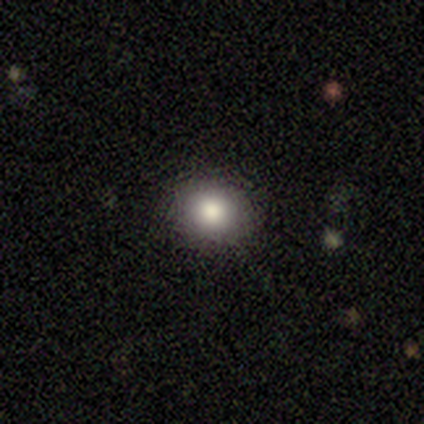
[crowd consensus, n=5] smooth-or-featured: smooth: 80% | star or artifact: 20% | featured or disk: 0%
  how-rounded: round: 100% | in between: 0% | cigar-shaped: 0%
  merging: none: 100% | minor disturbance: 0% | major disturbance: 0% | merger: 0%